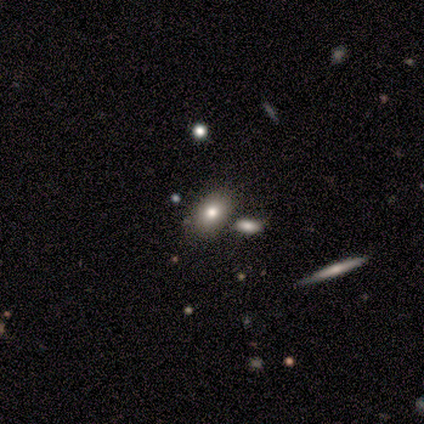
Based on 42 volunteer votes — This appears to be a smooth galaxy with no disk features (67%) that is in between round and cigar-shaped (82%). Merging: none (72%).